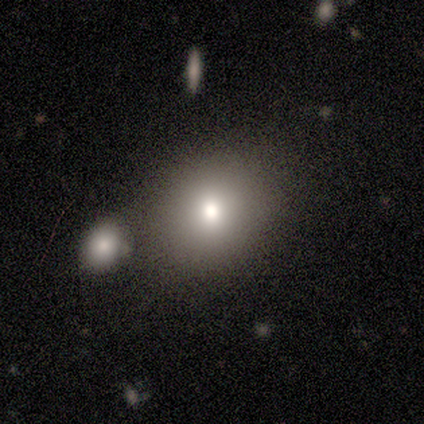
Smooth or featured? 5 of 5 (100%) said smooth. How rounded? 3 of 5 (60%) said round. Merging? 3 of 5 (60%) said none.